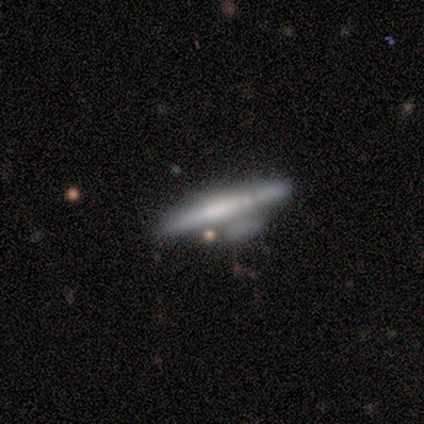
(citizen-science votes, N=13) smooth_or_featured: featured or disk (p=0.54) [alt: smooth p=0.38]
disk_edge_on: yes (p=1.00)
edge_on_bulge: none (p=0.57) [alt: boxy p=0.29]
merging: minor disturbance (p=0.50) [alt: none p=0.33]